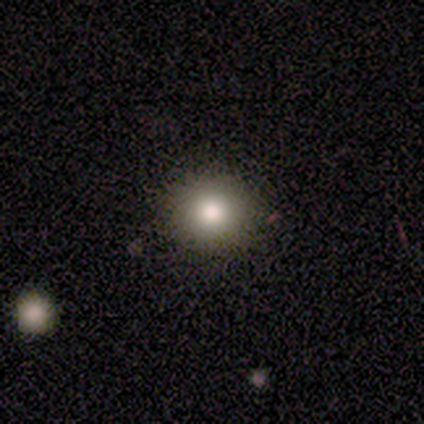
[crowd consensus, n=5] Overall: smooth (100%). How rounded: round (100%). Merging: none (100%).